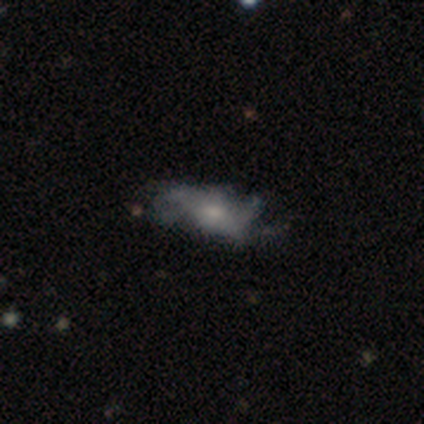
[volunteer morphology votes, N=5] Smooth or featured? featured or disk (60%)
Edge-on disk? no (100%)
Bar? no (100%)
Spiral arms? yes (67%)
Spiral winding? loose (100%)
Spiral arm count? 2 (50%, tied with more than 4)
Bulge size? moderate (67%)
Merging? none (40%, tied with major disturbance)